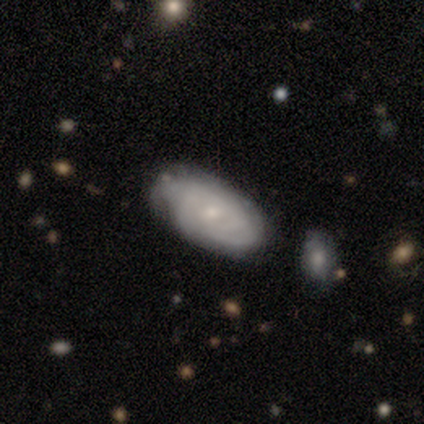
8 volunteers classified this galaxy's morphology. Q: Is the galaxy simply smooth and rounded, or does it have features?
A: featured or disk — 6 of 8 (75%).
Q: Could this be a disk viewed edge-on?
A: no — 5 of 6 (83%).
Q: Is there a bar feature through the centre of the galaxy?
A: no — 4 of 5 (80%).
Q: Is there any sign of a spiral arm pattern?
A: yes — 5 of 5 (100%).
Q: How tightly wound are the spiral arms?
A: tight — 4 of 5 (80%).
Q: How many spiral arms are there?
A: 3 — 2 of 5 (40%, tied with can't tell).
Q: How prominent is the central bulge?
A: small — 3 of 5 (60%).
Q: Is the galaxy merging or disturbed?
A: none — 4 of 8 (50%).